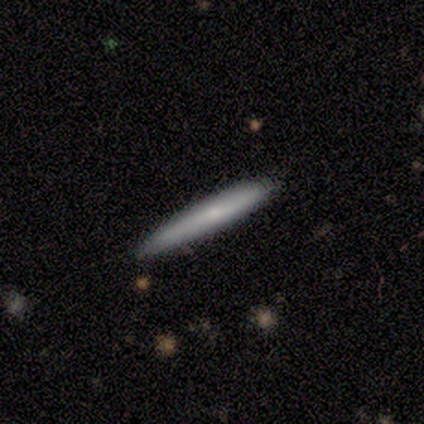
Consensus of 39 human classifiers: Smooth or featured? featured or disk (49%)
Edge-on disk? yes (95%)
Edge-on bulge? none (56%)
Merging? none (74%)